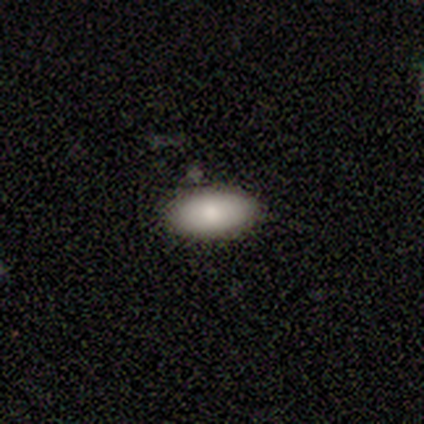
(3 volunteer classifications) Overall: smooth (100%). How rounded: in between (100%). Merging: none (67%; minor disturbance 33%).